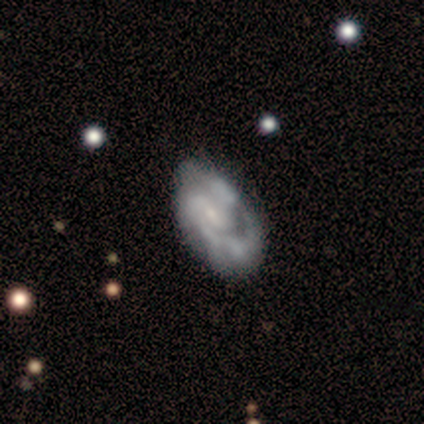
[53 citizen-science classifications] Overall: featured or disk (87%). Edge-on disk: no (98%). Bar: weak (53%; no 38%). Spiral arms: yes (91%). Spiral arm count: can't tell (34%; 2 32%). Spiral winding: medium (49%; tight 32%). Bulge size: small (62%). Merging: none (44%; minor disturbance 25%).